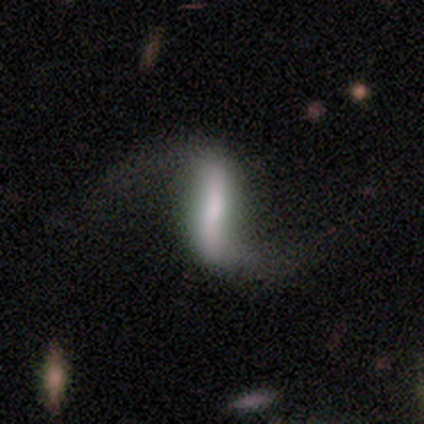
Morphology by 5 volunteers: Smooth or featured? featured or disk (80%)
Edge-on disk? yes (50%, tied with no)
Edge-on bulge? boxy (50%, tied with none)
Merging? major disturbance (60%)